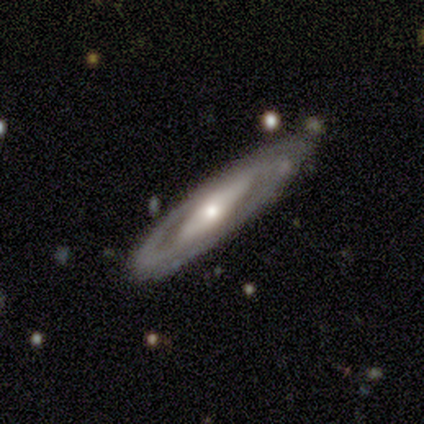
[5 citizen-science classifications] smooth_or_featured: featured or disk (p=0.60) [alt: smooth p=0.40]
disk_edge_on: yes (p=0.67) [alt: no p=0.33]
edge_on_bulge: rounded (p=1.00)
merging: none (p=0.80) [alt: merger p=0.20]